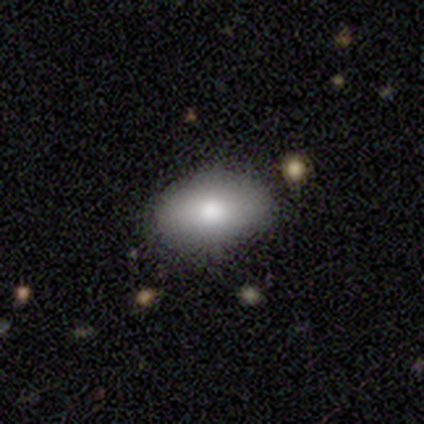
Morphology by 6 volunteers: type=smooth (67%); roundness=in between (100%); merging=none (83%).